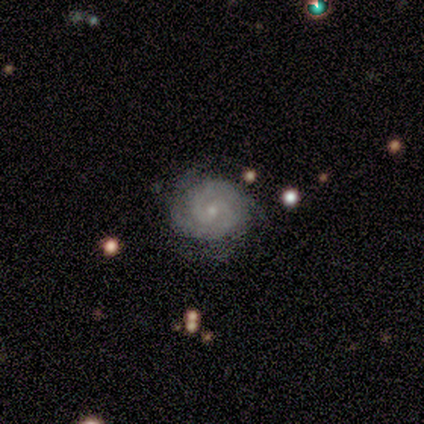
featured or disk 100%, smooth 0%, star or artifact 0%. Down the decision tree: edge-on disk — no (100%); bar — weak (40%, tied with no); spiral arms — yes (100%); spiral arm count — 2 (80%); spiral winding — tight (60%); bulge size — moderate (60%); merging — none (80%).